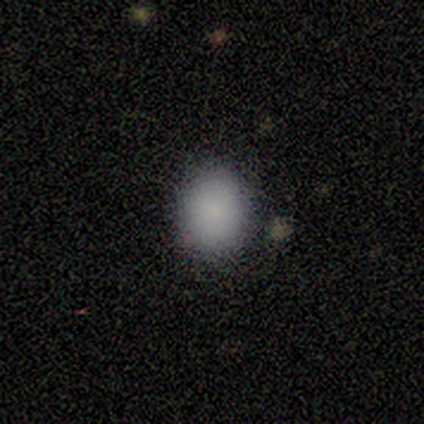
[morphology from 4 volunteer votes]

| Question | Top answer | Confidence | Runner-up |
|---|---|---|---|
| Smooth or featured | smooth | 100% | — |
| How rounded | round | 50% | tied: in between (50%) |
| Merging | none | 50% | tied: minor disturbance (50%) |